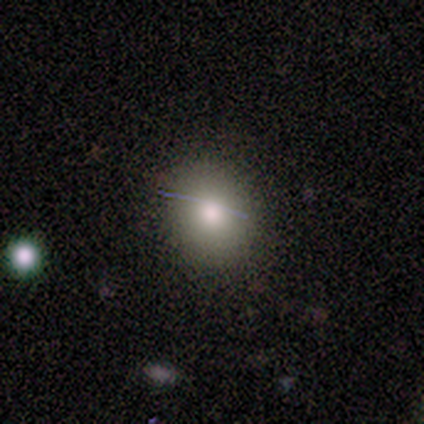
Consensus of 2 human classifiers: smooth-or-featured: smooth: 100% | featured or disk: 0% | star or artifact: 0%
  how-rounded: round: 50% (tied) | in between: 50% (tied) | cigar-shaped: 0%
  merging: none: 100% | minor disturbance: 0% | major disturbance: 0% | merger: 0%